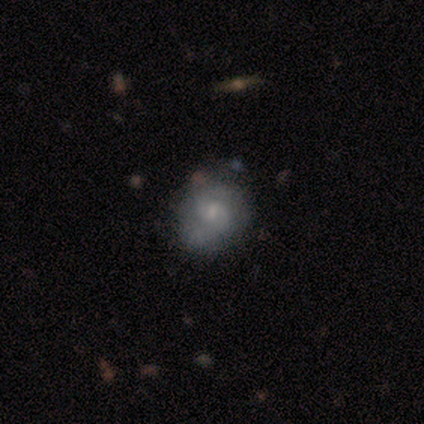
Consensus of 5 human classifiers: Morphology: type=featured or disk (80%); edge-on=no (100%); bar=weak (50%, tied with no); spiral arms=yes (100%); winding=medium (50%); arm count=2 (50%, tied with can't tell); bulge=small (75%); merging=none (60%).